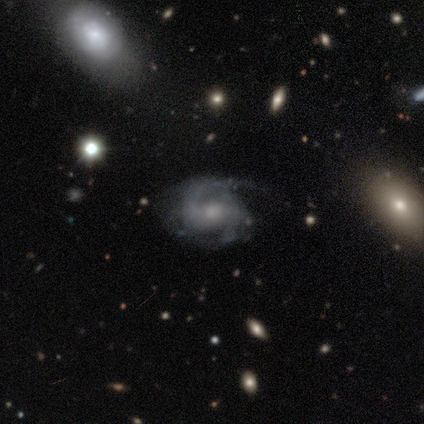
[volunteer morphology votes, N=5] This appears to be a featured or disk galaxy (100%) with no bar (60%), 2 (80%) medium (60%) spiral arms (100%) and a small central bulge (60%). Merging: none (60%).